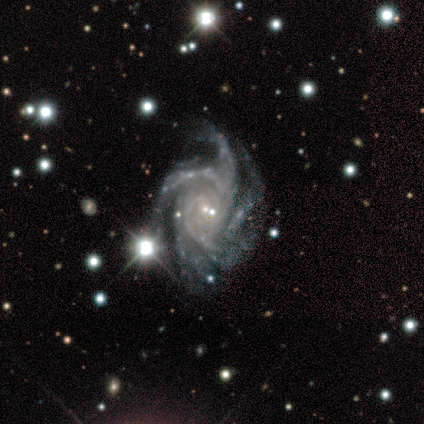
Smooth or featured?
  - featured or disk: 100% *
  - smooth: 0%
  - star or artifact: 0%
Edge-on disk?
  - no: 100% *
  - yes: 0%
Bar?
  - no: 75% *
  - weak: 25%
  - strong: 0%
Spiral arms?
  - yes: 100% *
  - no: 0%
Spiral winding?
  - tight: 50% *
  - medium: 25%
  - loose: 25%
Spiral arm count?
  - 2: 25% * (tied)
  - 3: 25% * (tied)
  - 4: 25% * (tied)
  - more than 4: 25% * (tied)
  - 1: 0%
  - can't tell: 0%
Bulge size?
  - small: 100% *
  - dominant: 0%
  - large: 0%
  - moderate: 0%
  - none: 0%
Merging?
  - none: 75% *
  - minor disturbance: 25%
  - major disturbance: 0%
  - merger: 0%